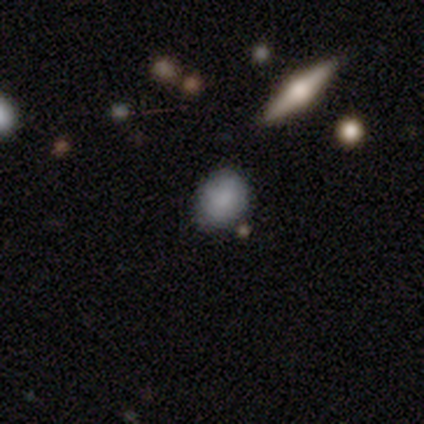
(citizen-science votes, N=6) Smooth or featured: smooth — 83% (featured or disk — 17%)
How rounded: round — 60% (in between — 40%)
Merging: none — 67% (minor disturbance — 33%)